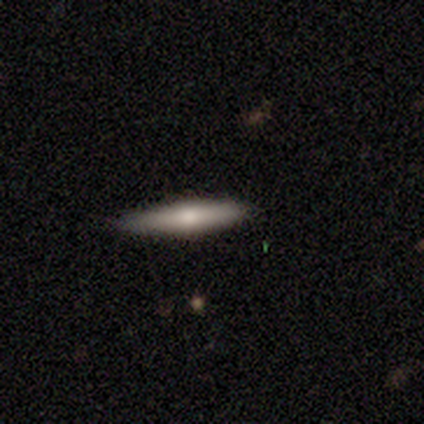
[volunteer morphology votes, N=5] smooth-or-featured: smooth: 40% (tied) | featured or disk: 40% (tied) | star or artifact: 20%
  how-rounded: cigar-shaped: 100% | round: 0% | in between: 0%
  merging: none: 100% | minor disturbance: 0% | major disturbance: 0% | merger: 0%